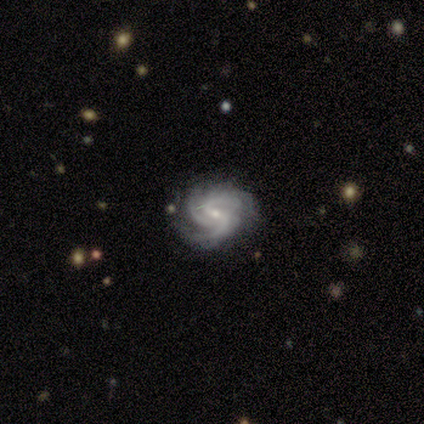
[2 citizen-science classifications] Overall: featured or disk (100%). Edge-on disk: no (100%). Bar: no (100%). Spiral arms: yes (100%). Spiral arm count: 3 (50%, tied with more than 4). Spiral winding: tight (50%, tied with medium). Bulge size: moderate (50%, tied with small). Merging: none (50%, tied with minor disturbance).